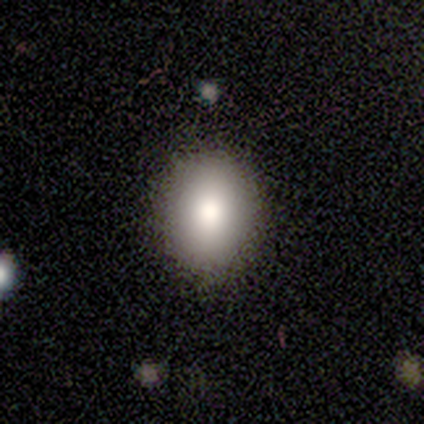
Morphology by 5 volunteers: Smooth or featured?
  - smooth: 100% *
  - featured or disk: 0%
  - star or artifact: 0%
How rounded?
  - in between: 60% *
  - round: 40%
  - cigar-shaped: 0%
Merging?
  - none: 80% *
  - minor disturbance: 20%
  - major disturbance: 0%
  - merger: 0%